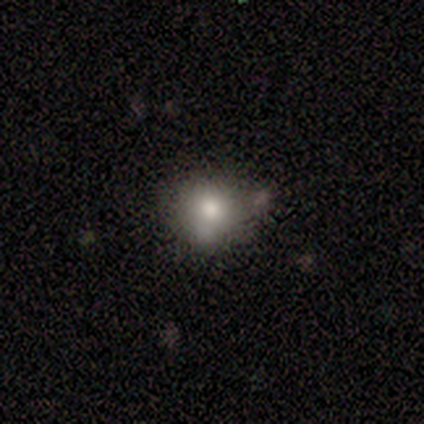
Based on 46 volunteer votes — smooth 76%, featured or disk 20%, star or artifact 4%. Down the decision tree: how rounded — round (77%); merging — none (55%).